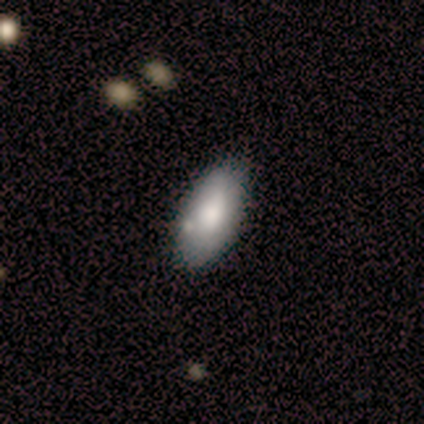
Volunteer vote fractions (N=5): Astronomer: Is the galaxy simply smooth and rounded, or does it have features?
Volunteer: smooth — 80%.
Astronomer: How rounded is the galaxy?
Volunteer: in between — 100%.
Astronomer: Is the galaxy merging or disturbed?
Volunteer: none — 60%.